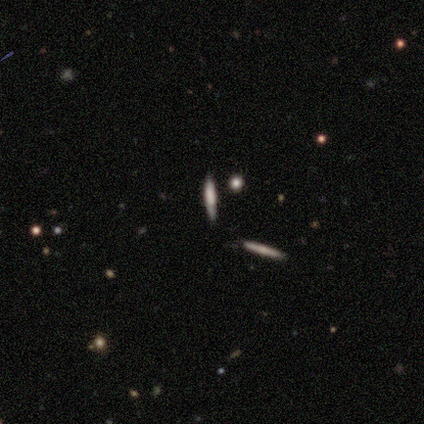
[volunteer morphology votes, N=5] type=smooth (60%); roundness=cigar-shaped (100%); merging=none (60%).